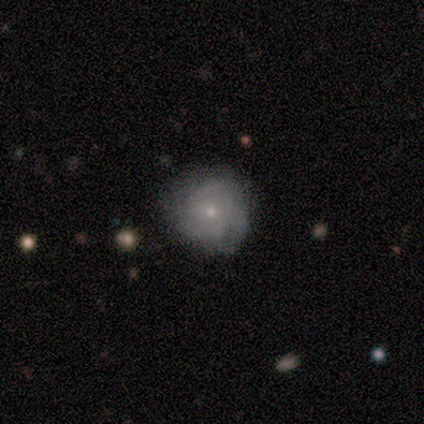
Overall: smooth (40%, tied with featured or disk). How rounded: round (100%). Merging: none (75%).